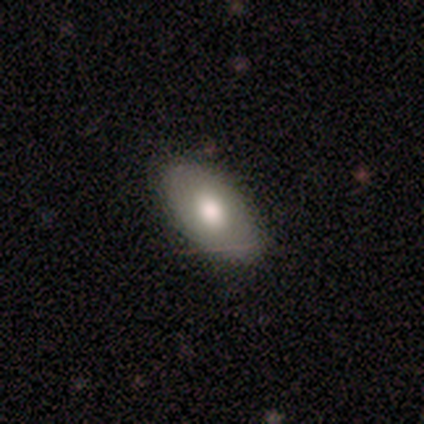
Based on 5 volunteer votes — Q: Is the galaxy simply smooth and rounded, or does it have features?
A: featured or disk — 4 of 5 (80%).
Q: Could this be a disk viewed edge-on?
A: yes — 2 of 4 (50%, tied with no).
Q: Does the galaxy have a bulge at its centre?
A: rounded — 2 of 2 (100%).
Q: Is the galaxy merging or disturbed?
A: none — 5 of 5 (100%).